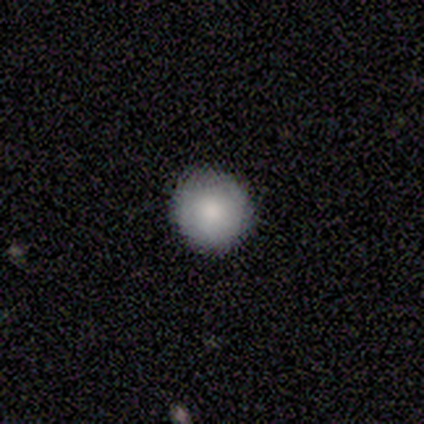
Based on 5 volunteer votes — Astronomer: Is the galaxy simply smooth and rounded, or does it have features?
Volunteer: smooth — 100%.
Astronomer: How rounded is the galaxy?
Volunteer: round — 100%.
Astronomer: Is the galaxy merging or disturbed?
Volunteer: none — 80%.